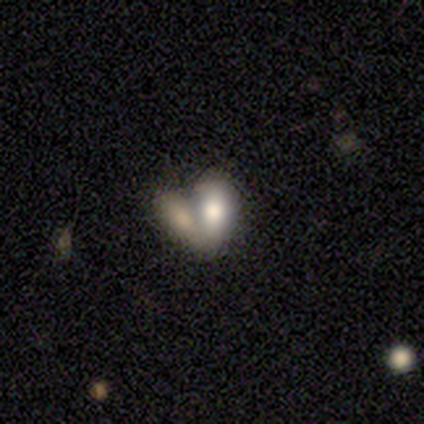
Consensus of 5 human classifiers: Smooth or featured?
  - smooth: 100% *
  - featured or disk: 0%
  - star or artifact: 0%
How rounded?
  - in between: 100% *
  - round: 0%
  - cigar-shaped: 0%
Merging?
  - merger: 100% *
  - none: 0%
  - minor disturbance: 0%
  - major disturbance: 0%